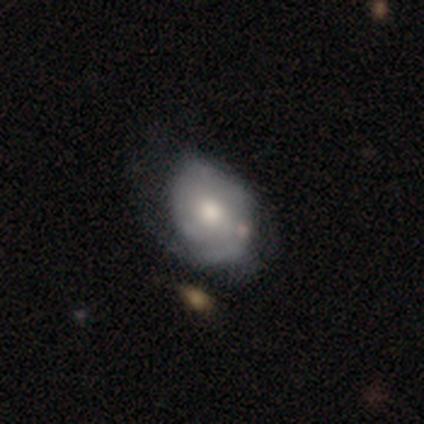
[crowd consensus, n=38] A featured or disk galaxy (58%) with no bar (86%), tight (53%) spiral arms (68%) and a moderate central bulge (55%).

Vote fractions:
- Smooth or featured? featured or disk: 58% / smooth: 32% / star or artifact: 11%
- Edge-on disk? no: 100% / yes: 0%
- Bar? no: 86% / weak: 14% / strong: 0%
- Spiral arms? yes: 68% / no: 32%
- Spiral winding? tight: 53% / medium: 33% / loose: 13%
- Spiral arm count? can't tell: 40% / 1: 33% / 2: 20% / 3: 7% / 4: 0% / more than 4: 0%
- Bulge size? moderate: 55% / small: 23% / large: 18% / dominant: 5% / none: 0%
- Merging? none: 44% (tied) / minor disturbance: 44% (tied) / major disturbance: 9% / merger: 3%